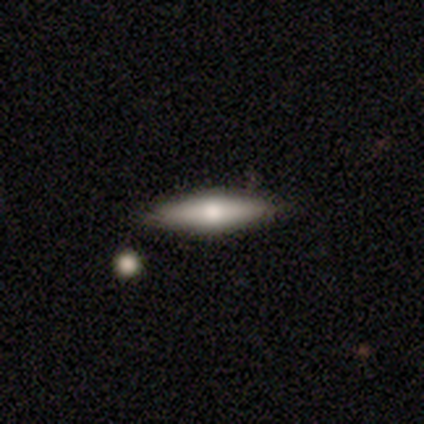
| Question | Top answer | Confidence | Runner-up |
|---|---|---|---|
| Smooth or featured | smooth | 60% | featured or disk (40%) |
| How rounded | cigar-shaped | 100% | — |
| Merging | none | 100% | — |